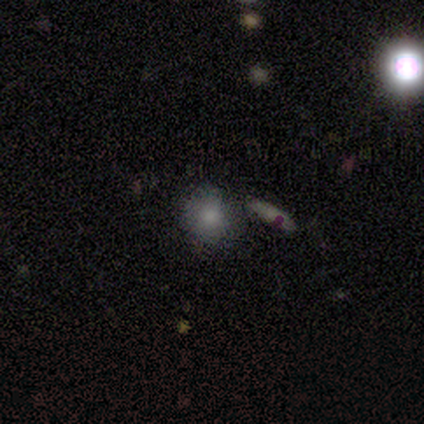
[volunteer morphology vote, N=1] A smooth galaxy with no disk features (100%) that is round (100%).

Vote fractions:
- Smooth or featured? smooth: 100% / featured or disk: 0% / star or artifact: 0%
- How rounded? round: 100% / in between: 0% / cigar-shaped: 0%
- Merging? none: 100% / minor disturbance: 0% / major disturbance: 0% / merger: 0%